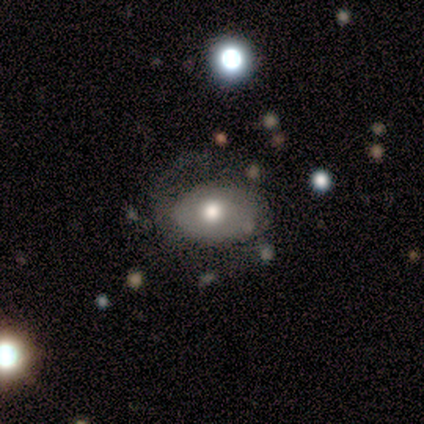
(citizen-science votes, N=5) A featured or disk galaxy (60%) with no bar (100%), no spiral arms (100%) and a moderate central bulge (100%). Merging: minor disturbance (60%).